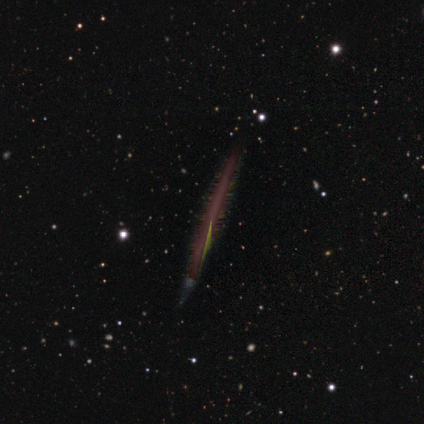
Smooth or featured: featured or disk — 80% (star or artifact — 20%)
Edge-on disk: yes — 50% (tied with no — 50%)
Edge-on bulge: none — 100%
Merging: none — 100%